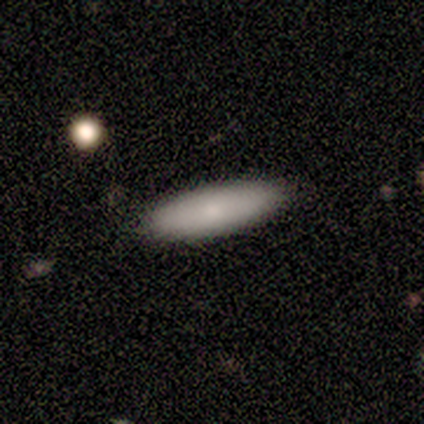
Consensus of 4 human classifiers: Smooth or featured?
  - smooth: 100% *
  - featured or disk: 0%
  - star or artifact: 0%
How rounded?
  - in between: 50% * (tied)
  - cigar-shaped: 50% * (tied)
  - round: 0%
Merging?
  - none: 100% *
  - minor disturbance: 0%
  - major disturbance: 0%
  - merger: 0%